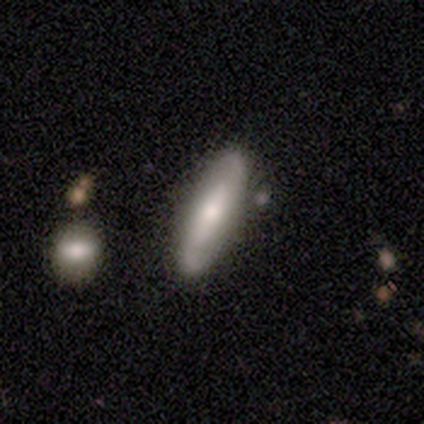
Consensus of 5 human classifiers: This is likely a featured or disk galaxy (60%). It is clearly not viewed edge-on (100%). Bar: marginally strong (33%, tied with weak and no). Spiral arm pattern: likely yes (67%). Spiral arm count: clearly 2 (100%). Spiral winding: possibly medium (50%, tied with loose). Central bulge: likely moderate (67%). Merging: clearly none (100%).